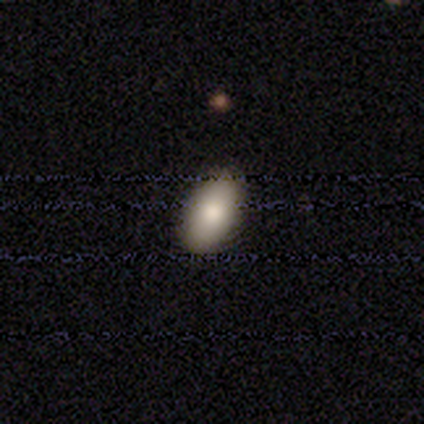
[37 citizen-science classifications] Volunteers were most divided on "smooth or featured": smooth: 81%, star or artifact: 14%, featured or disk: 5%. More confident: how rounded — in between (100%); merging — none (88%).